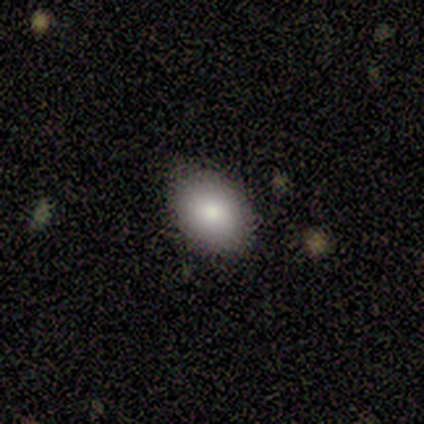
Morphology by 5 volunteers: Overall: smooth (100%). How rounded: in between (80%). Merging: none (80%).